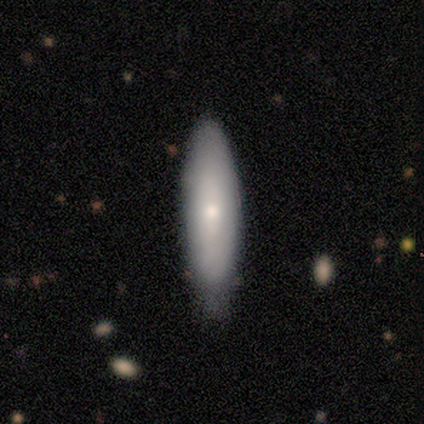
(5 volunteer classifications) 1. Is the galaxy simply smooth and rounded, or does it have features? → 100% smooth, 0% featured or disk, 0% star or artifact.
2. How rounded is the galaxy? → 80% cigar-shaped, 20% in between, 0% round.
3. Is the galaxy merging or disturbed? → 80% none, 20% minor disturbance, 0% major disturbance, 0% merger.